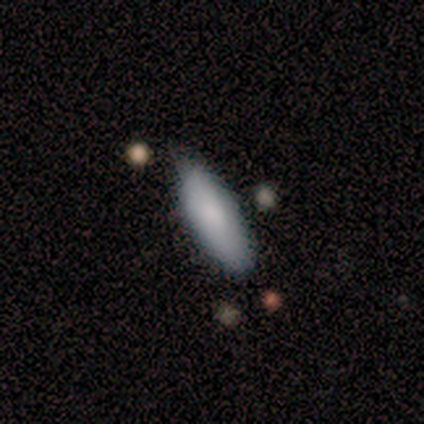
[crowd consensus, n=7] smooth 100%, featured or disk 0%, star or artifact 0%. Down the decision tree: how rounded — in between (71%); merging — none (57%).